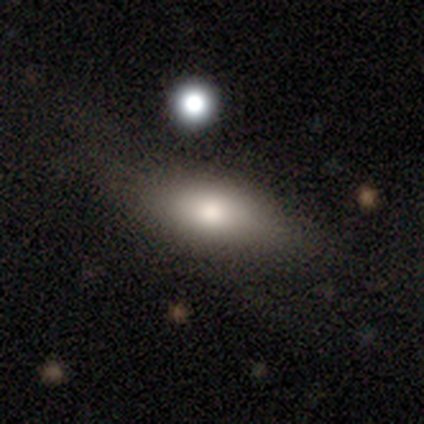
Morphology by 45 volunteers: smooth_or_featured: smooth (p=0.82) [alt: featured or disk p=0.13]
how_rounded: in between (p=0.76) [alt: cigar-shaped p=0.22]
merging: none (p=0.58) [alt: minor disturbance p=0.26]